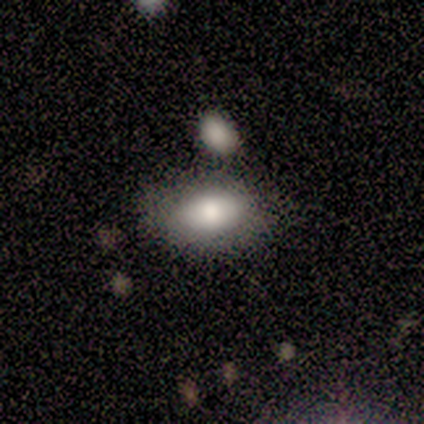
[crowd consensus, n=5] Morphology: type=smooth (100%); roundness=in between (80%); merging=none (80%).